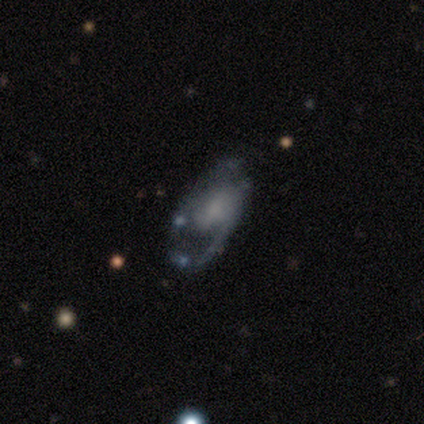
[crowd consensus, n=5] This appears to be a featured or disk galaxy (60%) with no bar (67%), no spiral arms (67%) and a dominant central bulge (33%, tied with moderate and small). Merging: major disturbance (60%).